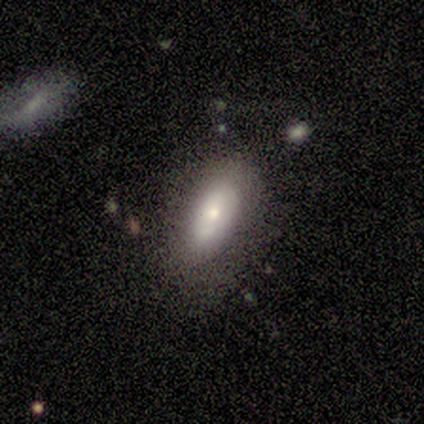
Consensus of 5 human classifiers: Smooth or featured? smooth (80%)
How rounded? in between (100%)
Merging? none (80%)